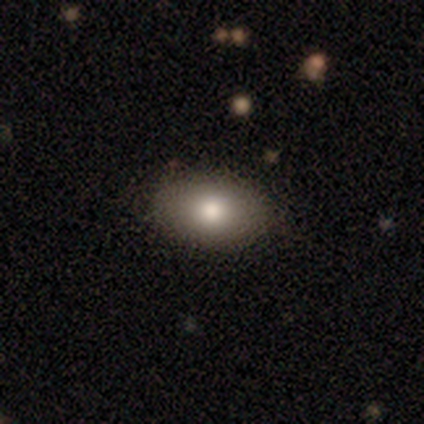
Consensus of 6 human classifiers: A smooth galaxy with no disk features (83%) that is in between round and cigar-shaped (80%).

Vote fractions:
- Smooth or featured? smooth: 83% / star or artifact: 17% / featured or disk: 0%
- How rounded? in between: 80% / round: 20% / cigar-shaped: 0%
- Merging? none: 60% / minor disturbance: 20% / merger: 20% / major disturbance: 0%